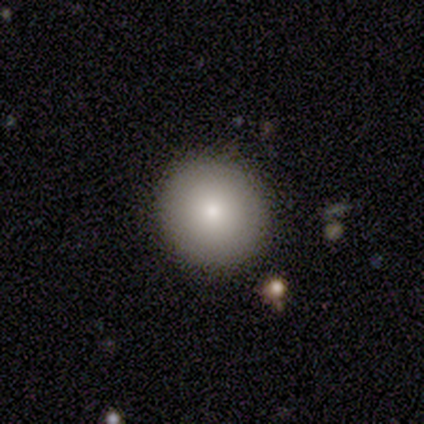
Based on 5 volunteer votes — Overall: smooth (100%). How rounded: round (100%). Merging: none (100%).